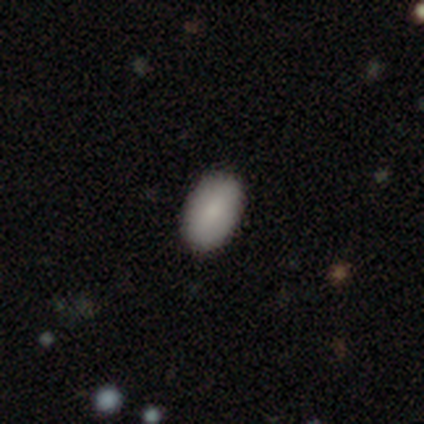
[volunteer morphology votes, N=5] Smooth or featured?
  - smooth: 80% *
  - featured or disk: 20%
  - star or artifact: 0%
How rounded?
  - in between: 100% *
  - round: 0%
  - cigar-shaped: 0%
Merging?
  - none: 100% *
  - minor disturbance: 0%
  - major disturbance: 0%
  - merger: 0%